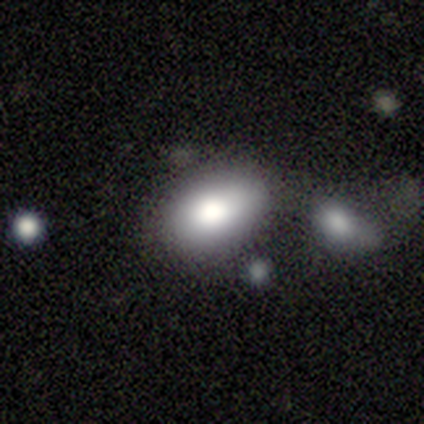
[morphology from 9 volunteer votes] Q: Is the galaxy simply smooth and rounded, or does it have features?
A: smooth — 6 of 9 (67%).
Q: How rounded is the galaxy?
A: in between — 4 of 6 (67%).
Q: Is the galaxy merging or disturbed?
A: none — 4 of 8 (50%).